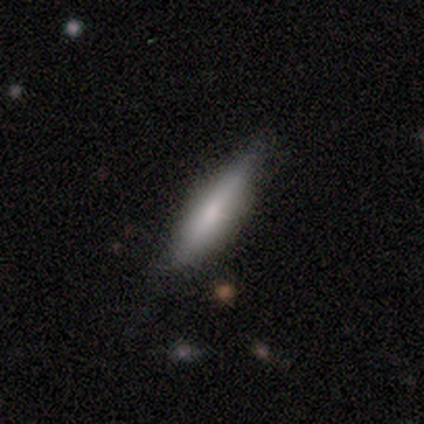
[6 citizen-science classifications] A smooth galaxy with no disk features (67%) that is cigar-shaped (75%). Merging: none (67%).